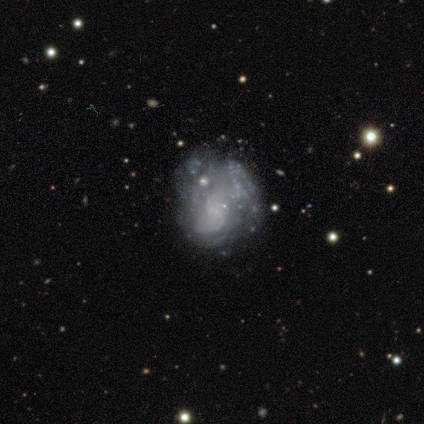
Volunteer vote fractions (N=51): Smooth or featured? 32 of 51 (63%) said featured or disk. Edge-on disk? 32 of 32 (100%) said no. Bar? 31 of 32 (97%) said no. Spiral arms? 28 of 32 (88%) said no. Bulge size? 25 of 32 (78%) said none. Merging? 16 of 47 (34%) said minor disturbance.